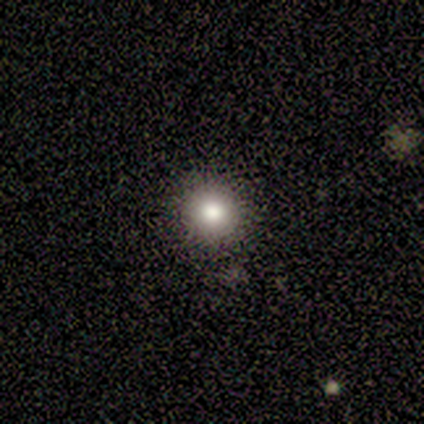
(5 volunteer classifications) A smooth galaxy with no disk features (80%) that is round (100%). Merging: none (100%).